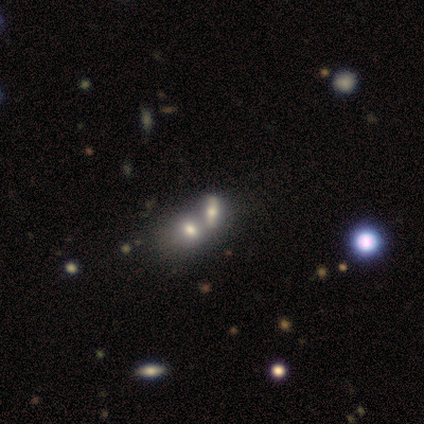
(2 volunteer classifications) smooth_or_featured: smooth (p=0.50) [tied with: featured or disk p=0.50]
how_rounded: in between (p=1.00)
merging: major disturbance (p=0.50) [tied with: merger p=0.50]